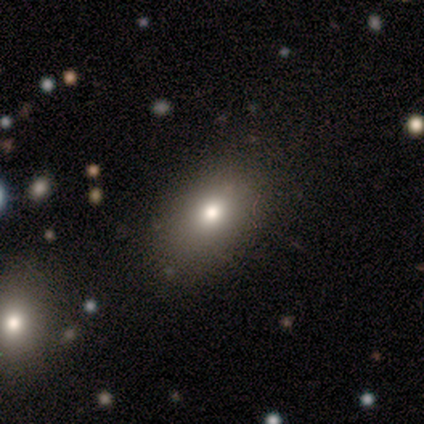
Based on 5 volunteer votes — Q: Smooth or featured?
A: smooth (60%); runner-up: featured or disk (20%)
Q: How rounded?
A: in between (67%); runner-up: round (33%)
Q: Merging?
A: none (100%)